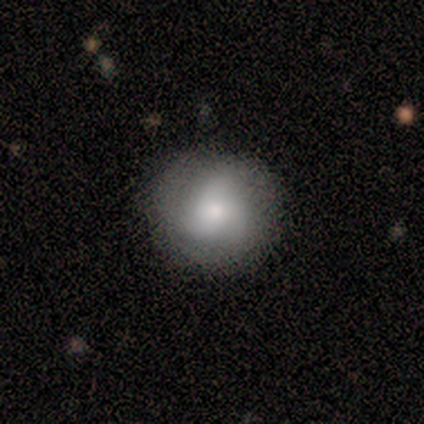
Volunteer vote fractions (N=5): Smooth or featured? smooth (100%)
How rounded? round (80%)
Merging? none (80%)